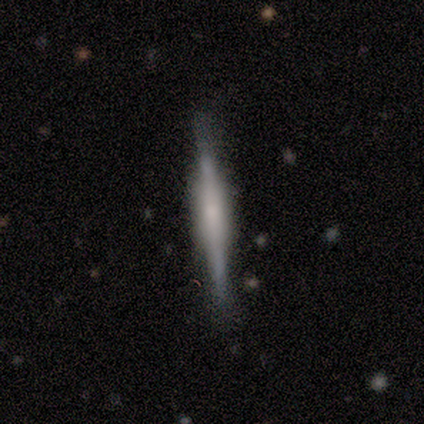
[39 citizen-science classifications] smooth_or_featured: featured or disk (p=0.67) [alt: smooth p=0.23]
disk_edge_on: yes (p=0.92) [alt: no p=0.08]
edge_on_bulge: boxy (p=0.46) [alt: rounded p=0.29]
merging: none (p=0.86) [alt: minor disturbance p=0.11]